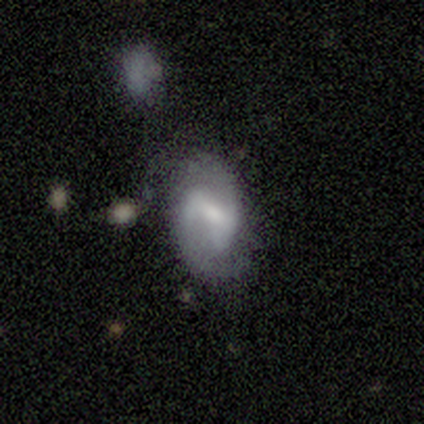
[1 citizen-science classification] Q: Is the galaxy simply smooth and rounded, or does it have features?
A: featured or disk — 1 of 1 (100%).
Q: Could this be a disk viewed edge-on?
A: no — 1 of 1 (100%).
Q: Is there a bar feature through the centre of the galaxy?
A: weak — 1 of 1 (100%).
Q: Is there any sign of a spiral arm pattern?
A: yes — 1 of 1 (100%).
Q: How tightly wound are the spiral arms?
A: tight — 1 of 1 (100%).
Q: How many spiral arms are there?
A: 2 — 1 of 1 (100%).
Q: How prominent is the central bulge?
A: small — 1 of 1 (100%).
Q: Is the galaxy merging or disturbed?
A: none — 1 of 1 (100%).